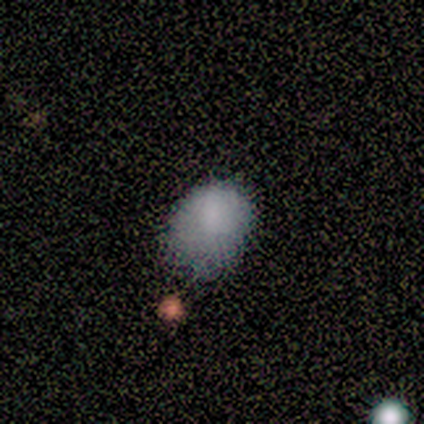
A smooth galaxy with no disk features (75%) that is in between round and cigar-shaped (67%). Merging: minor disturbance (50%).